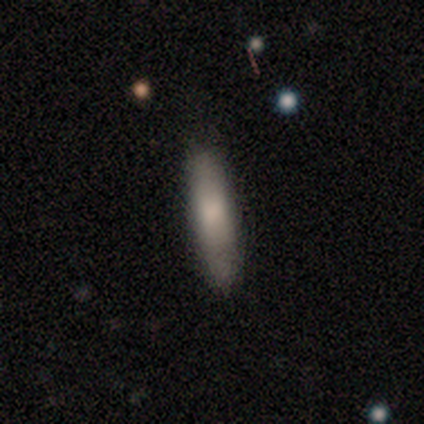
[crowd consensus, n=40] smooth-or-featured: smooth: 70% | featured or disk: 28% | star or artifact: 2%
  how-rounded: cigar-shaped: 71% | in between: 29% | round: 0%
  merging: none: 77% | minor disturbance: 23% | major disturbance: 0% | merger: 0%